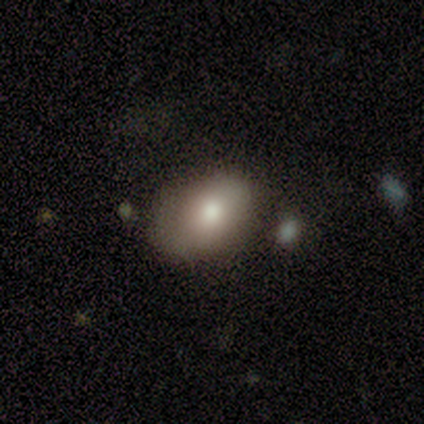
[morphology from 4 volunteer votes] Smooth or featured? 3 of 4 (75%) said smooth. How rounded? 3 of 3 (100%) said in between. Merging? 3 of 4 (75%) said none.